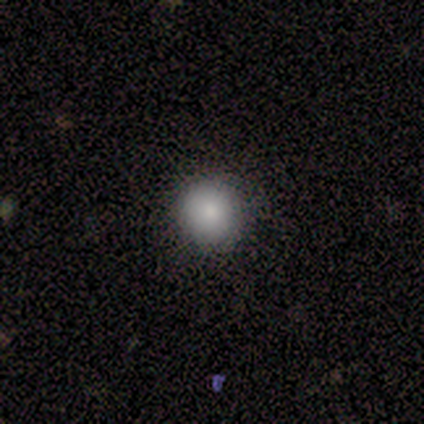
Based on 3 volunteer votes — Smooth or featured? 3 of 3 (100%) said smooth. How rounded? 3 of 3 (100%) said round. Merging? 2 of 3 (67%) said none.